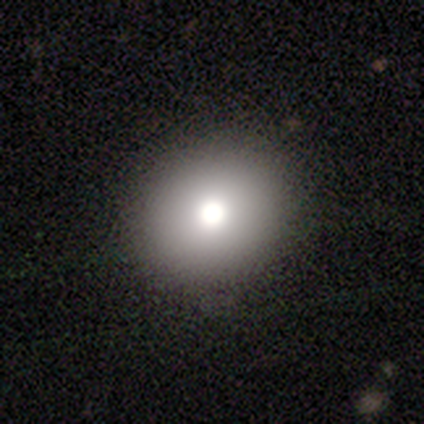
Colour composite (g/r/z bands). It shows a smooth galaxy with no disk features (60%) that is in between round and cigar-shaped (67%). Merging: none (100%).